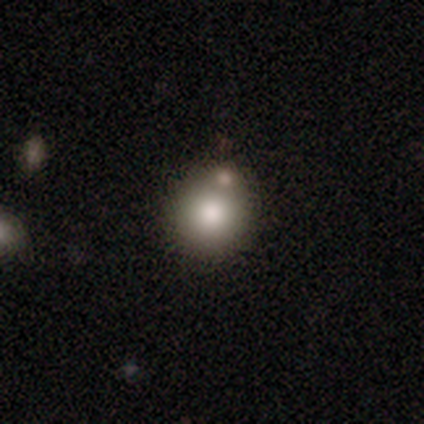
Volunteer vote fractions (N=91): Smooth or featured? smooth (73%)
How rounded? round (92%)
Merging? none (74%)